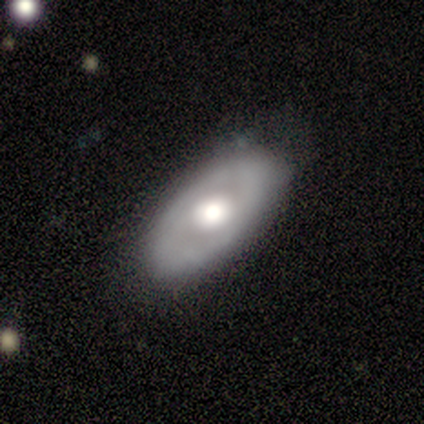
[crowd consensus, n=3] This appears to be a featured or disk galaxy (67%) with a weak bar (50%, tied with no), 2 (100%) medium (100%) spiral arms (50%, tied with no) and a dominant central bulge (50%, tied with moderate). Merging: none (67%).